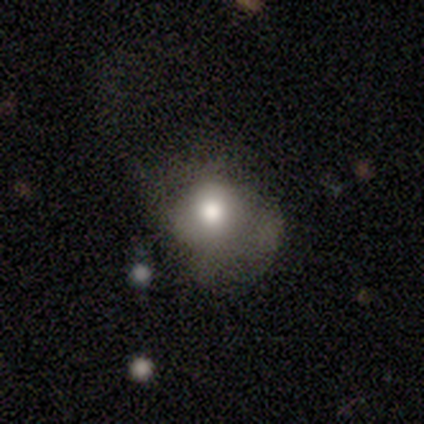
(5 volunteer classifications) smooth 60%, featured or disk 40%, star or artifact 0%. Down the decision tree: how rounded — round (100%); merging — none (60%).